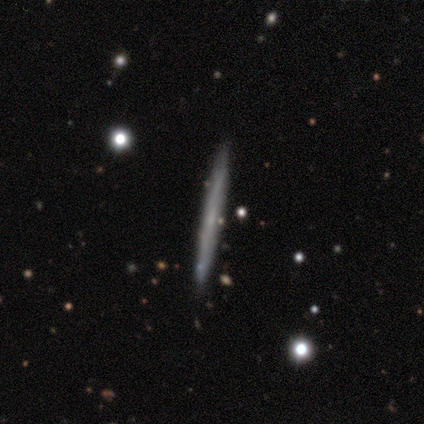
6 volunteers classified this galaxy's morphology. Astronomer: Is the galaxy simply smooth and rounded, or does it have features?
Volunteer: featured or disk — 83%.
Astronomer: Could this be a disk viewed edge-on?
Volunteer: yes — 100%.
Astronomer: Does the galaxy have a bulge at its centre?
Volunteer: none — 80%.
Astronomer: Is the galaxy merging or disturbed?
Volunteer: none — 67%.